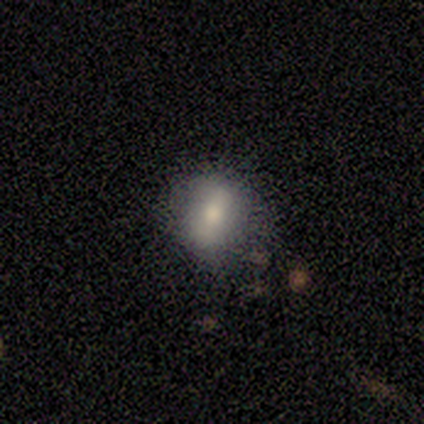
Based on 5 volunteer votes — Smooth or featured? smooth (60%)
How rounded? round (67%)
Merging? none (80%)